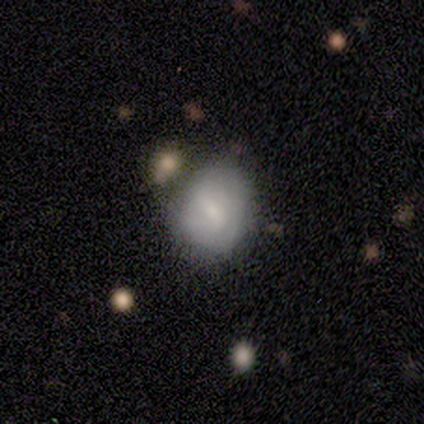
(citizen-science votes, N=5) Q: Smooth or featured?
A: smooth (80%); runner-up: featured or disk (20%)
Q: How rounded?
A: in between (75%); runner-up: round (25%)
Q: Merging?
A: minor disturbance (60%); runner-up: none (40%)